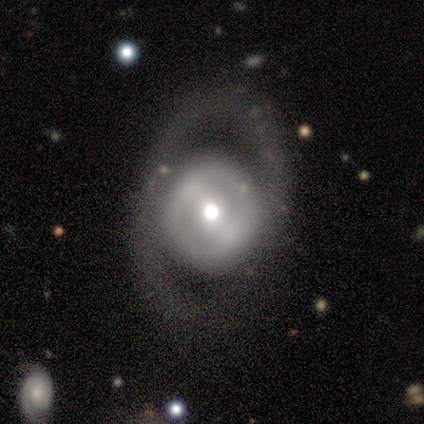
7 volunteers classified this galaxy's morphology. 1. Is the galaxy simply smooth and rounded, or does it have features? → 57% smooth, 29% featured or disk, 14% star or artifact.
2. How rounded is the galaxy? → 100% round, 0% in between, 0% cigar-shaped.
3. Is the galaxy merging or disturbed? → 67% none, 33% major disturbance, 0% minor disturbance, 0% merger.